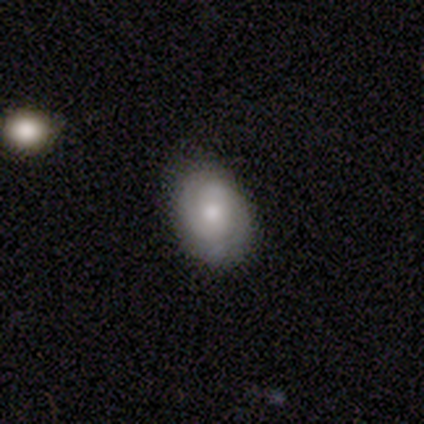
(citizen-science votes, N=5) A featured or disk galaxy (60%) with no bar (67%), 2 (100%) tight (100%) spiral arms (100%) and a moderate central bulge (100%).

Vote fractions:
- Smooth or featured? featured or disk: 60% / smooth: 20% / star or artifact: 20%
- Edge-on disk? no: 100% / yes: 0%
- Bar? no: 67% / weak: 33% / strong: 0%
- Spiral arms? yes: 100% / no: 0%
- Spiral winding? tight: 100% / medium: 0% / loose: 0%
- Spiral arm count? 2: 100% / 1: 0% / 3: 0% / 4: 0% / more than 4: 0% / can't tell: 0%
- Bulge size? moderate: 100% / dominant: 0% / large: 0% / small: 0% / none: 0%
- Merging? none: 100% / minor disturbance: 0% / major disturbance: 0% / merger: 0%